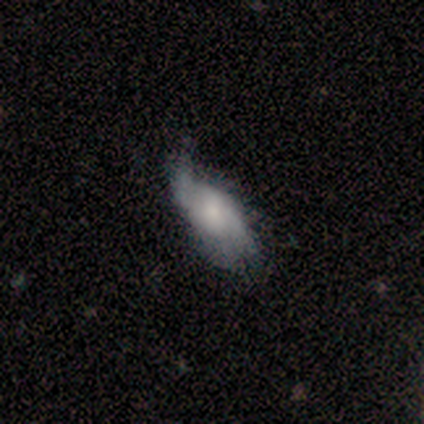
Volunteers were most divided on "smooth or featured": smooth: 60%, featured or disk: 40%, star or artifact: 0%. More confident: how rounded — in between (100%); merging — none (60%).